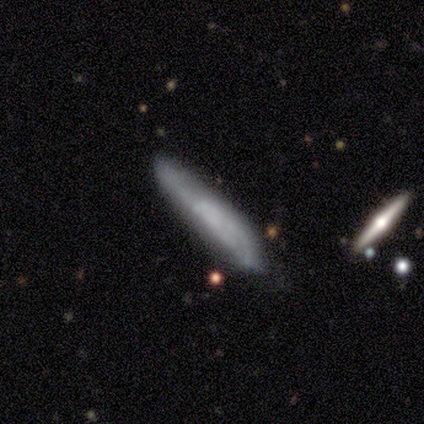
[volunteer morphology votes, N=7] A featured or disk galaxy (57%) viewed edge-on (50%, tied with no) with a boxy central bulge (50%, tied with none).

Vote fractions:
- Smooth or featured? featured or disk: 57% / smooth: 43% / star or artifact: 0%
- Edge-on disk? yes: 50% (tied) / no: 50% (tied)
- Edge-on bulge? boxy: 50% (tied) / none: 50% (tied) / rounded: 0%
- Merging? none: 71% / minor disturbance: 29% / major disturbance: 0% / merger: 0%